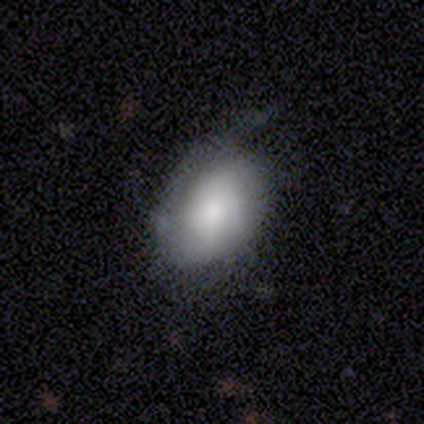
smooth_or_featured: featured or disk (p=0.49) [alt: smooth p=0.46]
disk_edge_on: no (p=1.00)
bar: no (p=0.89) [alt: weak p=0.11]
has_spiral_arms: yes (p=0.83) [alt: no p=0.17]
spiral_winding: tight (p=0.40) [alt: medium p=0.33]
spiral_arm_count: can't tell (p=0.47) [alt: 2 p=0.33]
bulge_size: moderate (p=0.33) [alt: large p=0.28]
merging: none (p=0.49) [alt: minor disturbance p=0.43]